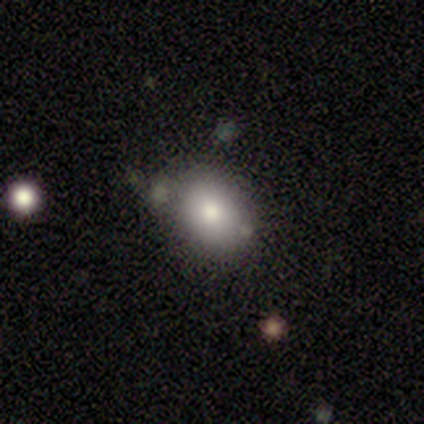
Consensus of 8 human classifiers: Overall: smooth (75%). How rounded: round (50%, tied with in between). Merging: none (71%).